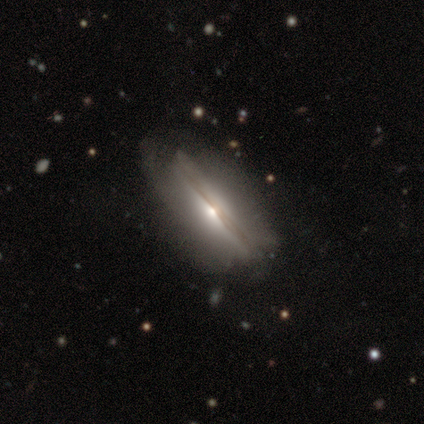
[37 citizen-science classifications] This is likely a featured or disk galaxy (68%). It is clearly viewed edge-on (84%). Edge-on bulge: clearly rounded (81%). Merging: possibly none (46%).